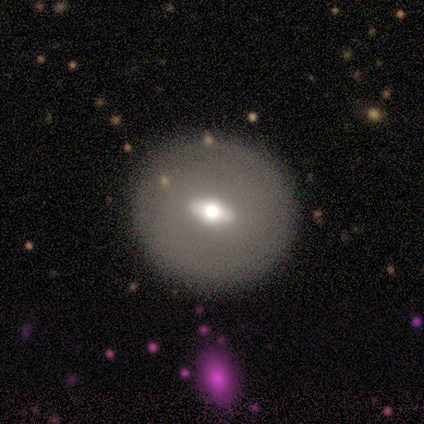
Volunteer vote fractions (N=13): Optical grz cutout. It shows a featured or disk galaxy (69%) with a strong bar (57%), no spiral arms (100%) and a moderate central bulge (71%). Merging: none (83%).